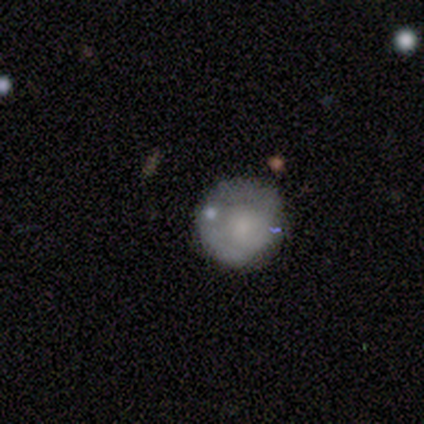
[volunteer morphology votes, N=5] smooth_or_featured: smooth (p=0.60) [alt: featured or disk p=0.40]
how_rounded: round (p=1.00)
merging: none (p=0.80) [alt: merger p=0.20]